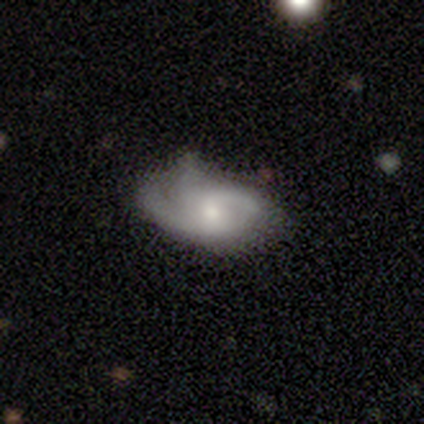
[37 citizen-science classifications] Smooth or featured? featured or disk (78%)
Edge-on disk? no (97%)
Bar? no (68%)
Spiral arms? yes (79%)
Spiral winding? medium (50%)
Spiral arm count? 2 (45%)
Bulge size? moderate (50%)
Merging? none (46%)